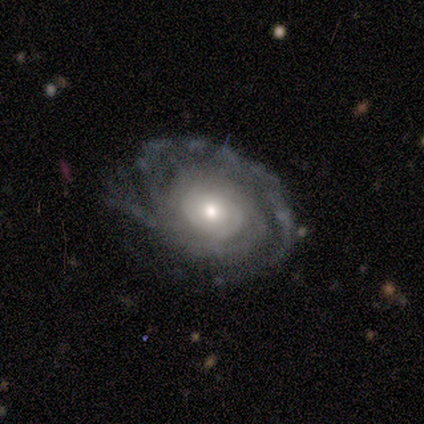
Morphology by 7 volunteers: Q: Smooth or featured?
A: featured or disk (100%)
Q: Edge-on disk?
A: no (100%)
Q: Bar?
A: no (71%); runner-up: weak (29%)
Q: Spiral arms?
A: yes (86%); runner-up: no (14%)
Q: Spiral winding?
A: tight (100%)
Q: Spiral arm count?
A: can't tell (50%); runner-up: 2 (33%)
Q: Bulge size?
A: small (57%); runner-up: moderate (43%)
Q: Merging?
A: none (71%); runner-up: minor disturbance (29%)